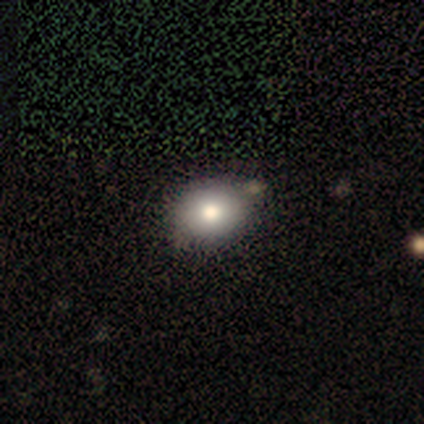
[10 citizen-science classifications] This is likely a smooth galaxy (70%). How rounded: possibly round (57%). Merging: clearly none (88%).